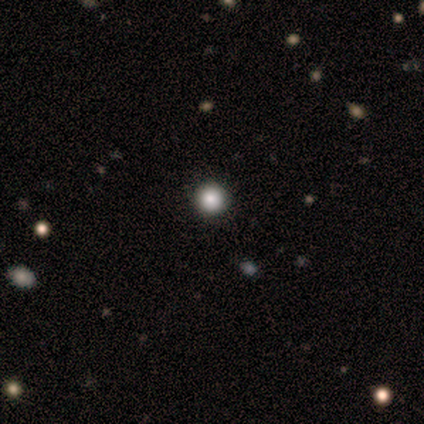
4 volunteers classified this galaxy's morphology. smooth 75%, star or artifact 25%, featured or disk 0%. Down the decision tree: how rounded — round (100%); merging — none (67%).